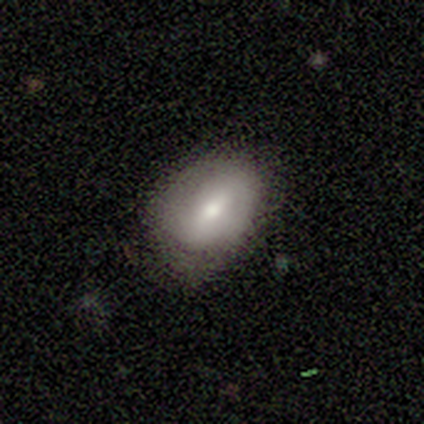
A featured or disk galaxy (60%) with a weak bar (67%), no spiral arms (67%) and a moderate central bulge (67%).

Vote fractions:
- Smooth or featured? featured or disk: 60% / smooth: 40% / star or artifact: 0%
- Edge-on disk? no: 100% / yes: 0%
- Bar? weak: 67% / no: 33% / strong: 0%
- Spiral arms? no: 67% / yes: 33%
- Bulge size? moderate: 67% / small: 33% / dominant: 0% / large: 0% / none: 0%
- Merging? none: 80% / minor disturbance: 20% / major disturbance: 0% / merger: 0%